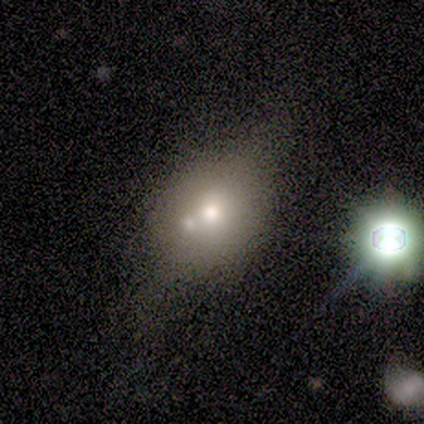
Overall: featured or disk (80%). Edge-on disk: no (100%). Bar: no (100%). Spiral arms: no (100%). Bulge size: moderate (75%). Merging: none (40%; minor disturbance 20%).